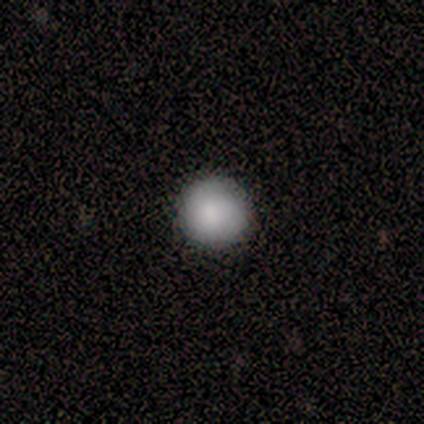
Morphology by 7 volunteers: Smooth or featured? smooth (86%)
How rounded? round (100%)
Merging? none (67%)